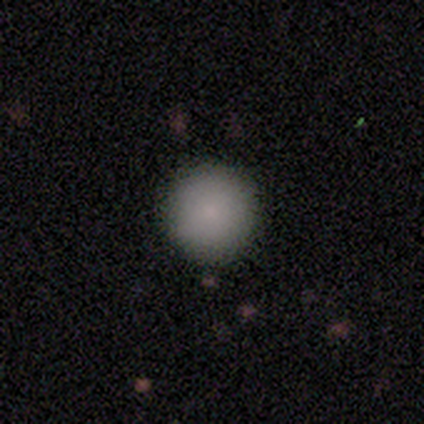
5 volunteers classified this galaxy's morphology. smooth 80%, star or artifact 20%, featured or disk 0%. Down the decision tree: how rounded — round (100%); merging — none (75%).